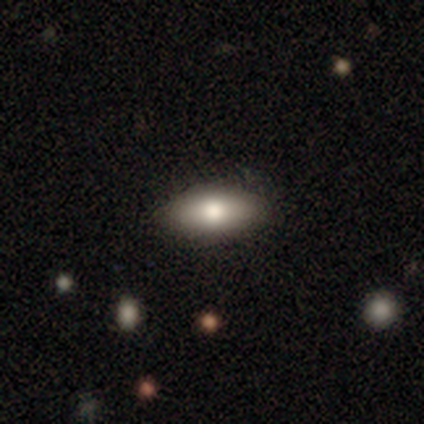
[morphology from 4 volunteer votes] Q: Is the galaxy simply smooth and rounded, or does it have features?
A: smooth — 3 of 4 (75%).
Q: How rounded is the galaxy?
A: in between — 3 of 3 (100%).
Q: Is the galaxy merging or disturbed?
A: none — 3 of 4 (75%).